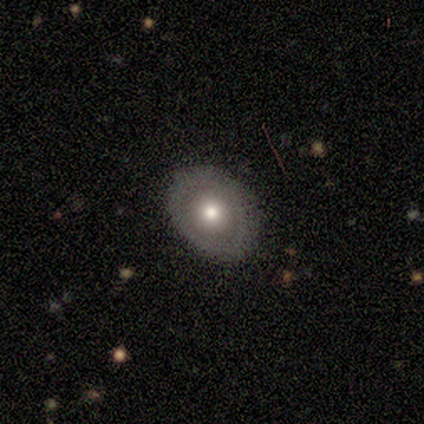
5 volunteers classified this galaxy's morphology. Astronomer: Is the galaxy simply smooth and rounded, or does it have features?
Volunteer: smooth — 80%.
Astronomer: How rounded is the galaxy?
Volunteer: in between — 75%.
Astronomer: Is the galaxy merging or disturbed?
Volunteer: none — 80%.